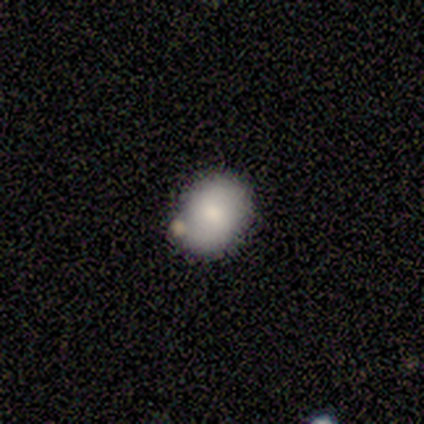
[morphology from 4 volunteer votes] Overall: smooth (50%; featured or disk 25%). How rounded: in between (100%). Merging: none (67%; merger 33%).